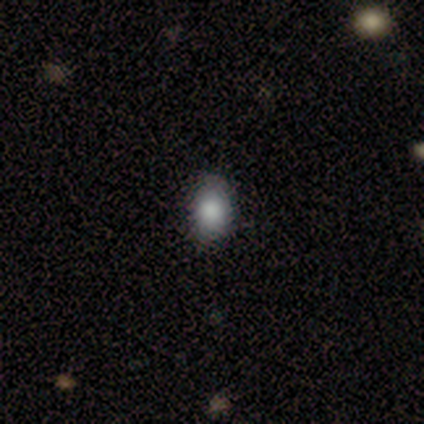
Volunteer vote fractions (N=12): Volunteers were most divided on "how rounded": in between: 75%, round: 25%, cigar-shaped: 0%. More confident: smooth or featured — smooth (100%); merging — none (100%).